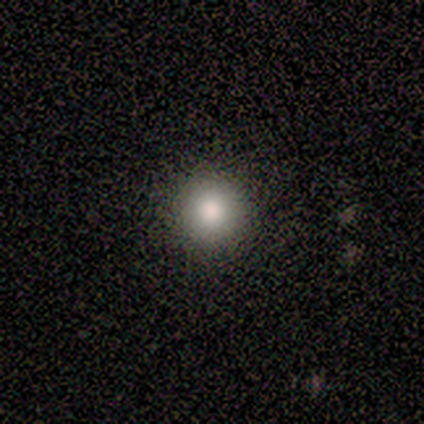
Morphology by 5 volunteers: Smooth or featured? 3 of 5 (60%) said smooth. How rounded? 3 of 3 (100%) said round. Merging? 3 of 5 (60%) said none.